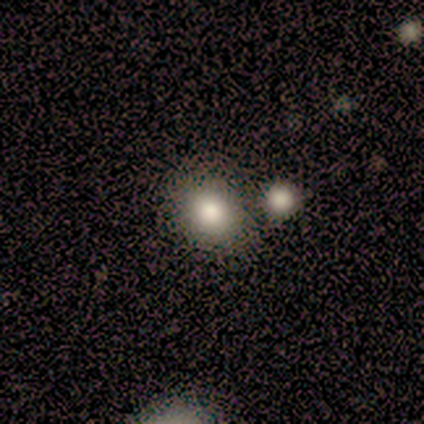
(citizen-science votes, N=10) Morphology: type=smooth (90%); roundness=round (78%); merging=none (56%).